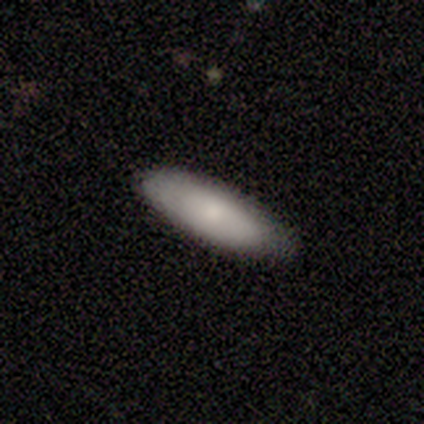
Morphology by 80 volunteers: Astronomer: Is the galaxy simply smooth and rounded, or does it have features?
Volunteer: smooth — 82%.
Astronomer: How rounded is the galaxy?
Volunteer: in between — 62% (runner-up: cigar-shaped, 38%).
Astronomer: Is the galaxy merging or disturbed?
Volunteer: none — 46%.